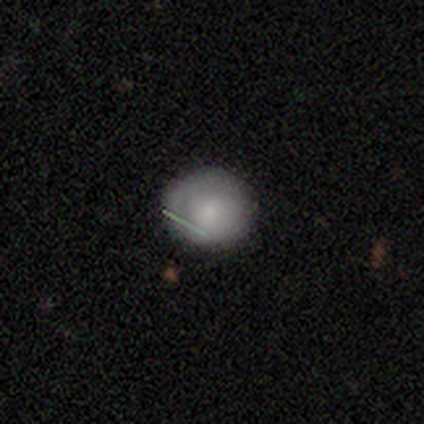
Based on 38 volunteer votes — smooth_or_featured: smooth (p=0.74) [alt: featured or disk p=0.24]
how_rounded: round (p=0.96) [alt: in between p=0.04]
merging: none (p=0.81) [alt: minor disturbance p=0.19]